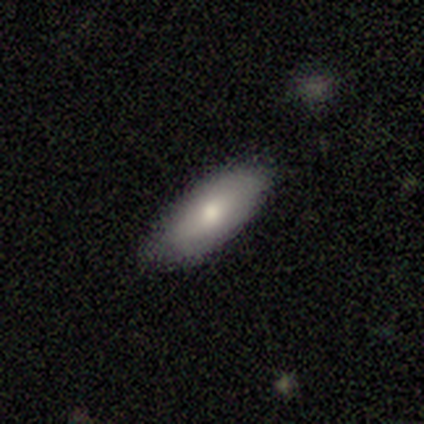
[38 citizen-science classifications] Morphology: type=smooth (82%); roundness=in between (77%); merging=none (89%).